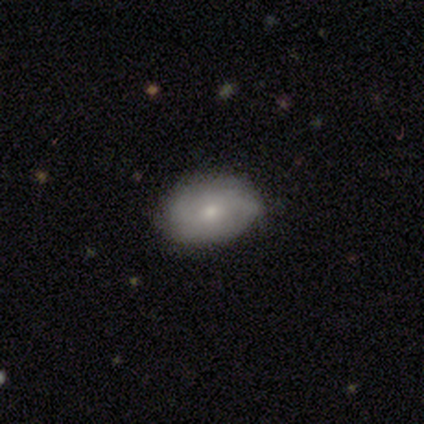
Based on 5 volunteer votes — Q: Smooth or featured?
A: smooth (60%); runner-up: featured or disk (20%)
Q: How rounded?
A: in between (100%)
Q: Merging?
A: none (75%); runner-up: minor disturbance (25%)